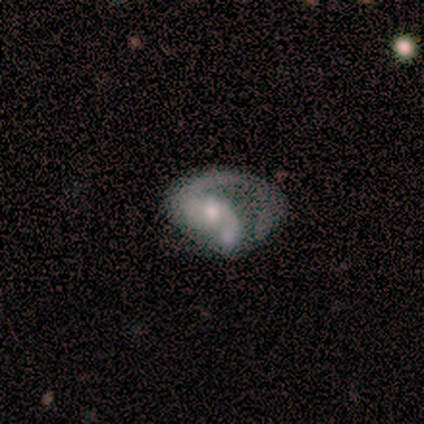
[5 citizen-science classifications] Smooth or featured? 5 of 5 (100%) said featured or disk. Edge-on disk? 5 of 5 (100%) said no. Bar? 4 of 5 (80%) said no. Spiral arms? 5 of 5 (100%) said yes. Spiral winding? 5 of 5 (100%) said loose. Spiral arm count? 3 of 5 (60%) said 1. Bulge size? 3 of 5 (60%) said moderate. Merging? 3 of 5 (60%) said major disturbance.